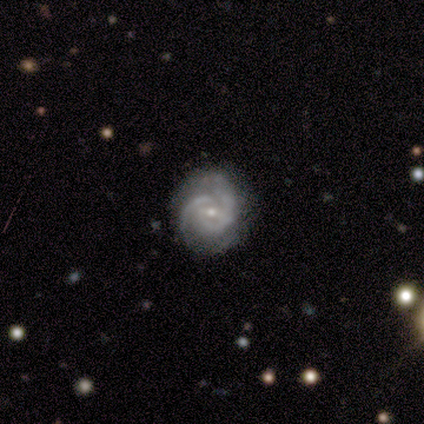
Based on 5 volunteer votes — This is clearly a featured or disk galaxy (80%). It is clearly not viewed edge-on (100%). Bar: likely weak (75%). Spiral arm pattern: clearly yes (100%). Spiral arm count: possibly 2 (50%). Spiral winding: likely tight (75%). Central bulge: possibly moderate (50%, tied with small). Merging: clearly none (100%).